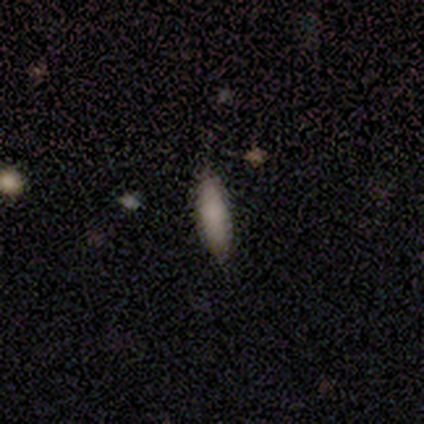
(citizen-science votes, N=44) Smooth or featured? 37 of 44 (84%) said smooth. How rounded? 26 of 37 (70%) said cigar-shaped. Merging? 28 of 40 (70%) said none.